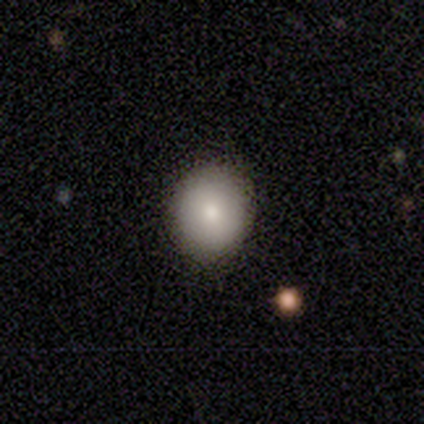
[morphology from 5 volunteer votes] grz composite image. It shows a smooth galaxy with no disk features (80%) that is round (50%, tied with in between). Merging: none (50%).